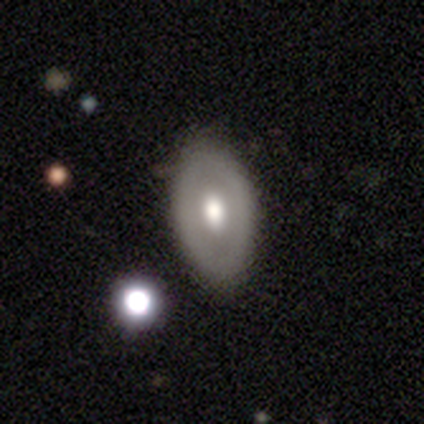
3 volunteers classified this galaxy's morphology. type=smooth (67%); roundness=in between (100%); merging=none (50%, tied with minor disturbance).